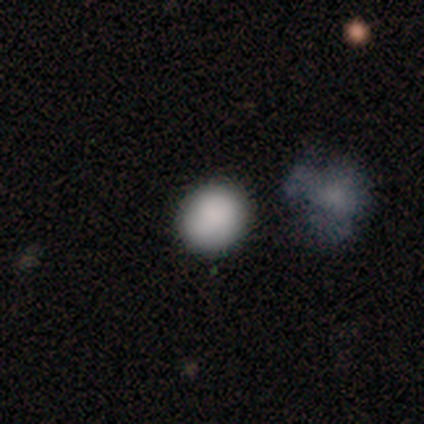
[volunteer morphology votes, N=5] smooth-or-featured: smooth: 100% | featured or disk: 0% | star or artifact: 0%
  how-rounded: round: 80% | in between: 20% | cigar-shaped: 0%
  merging: none: 80% | major disturbance: 20% | minor disturbance: 0% | merger: 0%